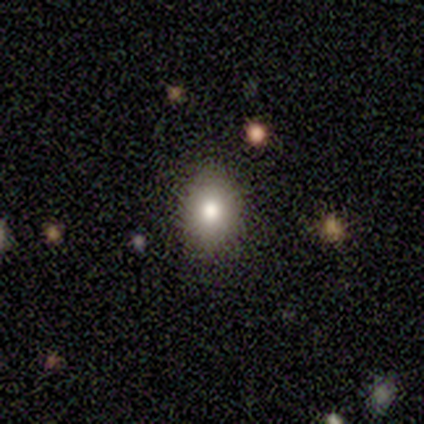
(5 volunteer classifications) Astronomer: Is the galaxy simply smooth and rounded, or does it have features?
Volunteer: smooth — 60%.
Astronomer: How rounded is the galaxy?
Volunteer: in between — 100%.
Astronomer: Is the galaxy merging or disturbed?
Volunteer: none — 100%.